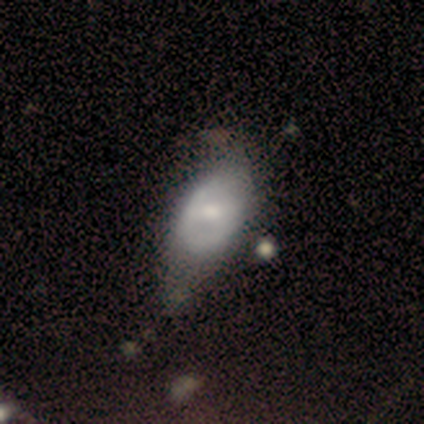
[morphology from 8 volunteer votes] Smooth or featured? 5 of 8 (62%) said featured or disk. Edge-on disk? 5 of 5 (100%) said no. Bar? 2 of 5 (40%, tied with no) said weak. Spiral arms? 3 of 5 (60%) said no. Bulge size? 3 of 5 (60%) said moderate. Merging? 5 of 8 (62%) said minor disturbance.